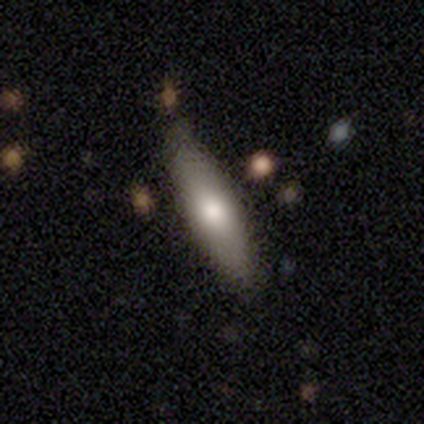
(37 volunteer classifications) Smooth or featured? 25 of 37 (68%) said smooth. How rounded? 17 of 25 (68%) said cigar-shaped. Merging? 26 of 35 (74%) said none.